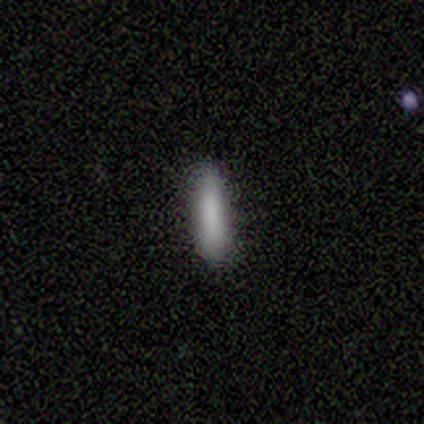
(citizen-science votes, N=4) Overall: smooth (100%). How rounded: cigar-shaped (100%). Merging: none (50%, tied with minor disturbance).